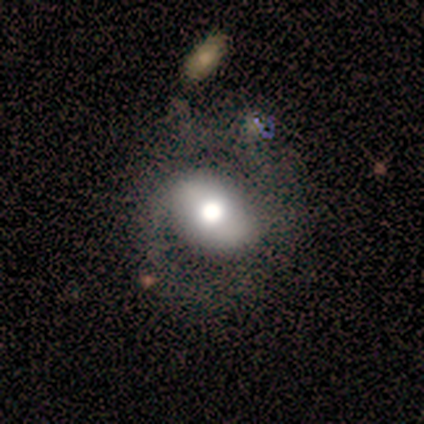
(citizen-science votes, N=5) Smooth or featured? 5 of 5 (100%) said featured or disk. Edge-on disk? 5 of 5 (100%) said no. Bar? 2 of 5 (40%, tied with weak) said strong. Spiral arms? 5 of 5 (100%) said yes. Spiral winding? 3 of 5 (60%) said tight. Spiral arm count? 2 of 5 (40%, tied with 2) said 1. Bulge size? 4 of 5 (80%) said moderate. Merging? 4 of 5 (80%) said none.